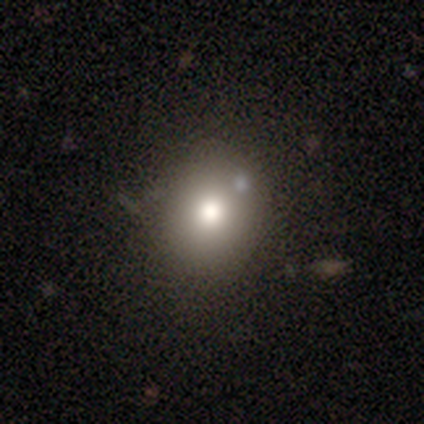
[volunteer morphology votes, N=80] A smooth galaxy with no disk features (85%) that is round (81%). Merging: none (39%).